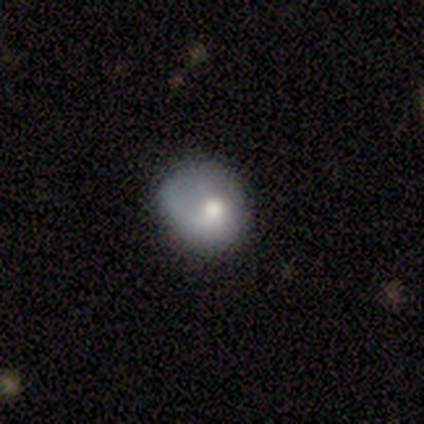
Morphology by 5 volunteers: A smooth galaxy with no disk features (100%) that is round (100%). Merging: none (40%, tied with minor disturbance).